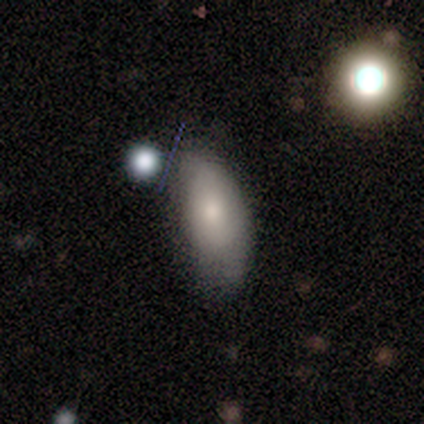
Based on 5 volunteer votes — This is clearly a smooth galaxy (100%). How rounded: clearly in between (80%). Merging: marginally none (40%, tied with minor disturbance).